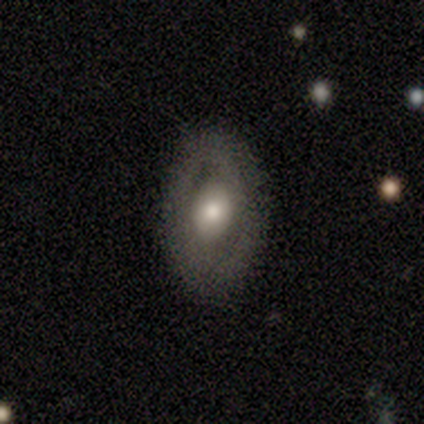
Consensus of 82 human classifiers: smooth_or_featured: featured or disk (p=0.50) [alt: smooth p=0.43]
disk_edge_on: no (p=0.90) [alt: yes p=0.10]
bar: no (p=0.65) [alt: weak p=0.24]
has_spiral_arms: no (p=0.81) [alt: yes p=0.19]
bulge_size: moderate (p=0.43) [alt: large p=0.32]
merging: none (p=0.83) [alt: minor disturbance p=0.12]